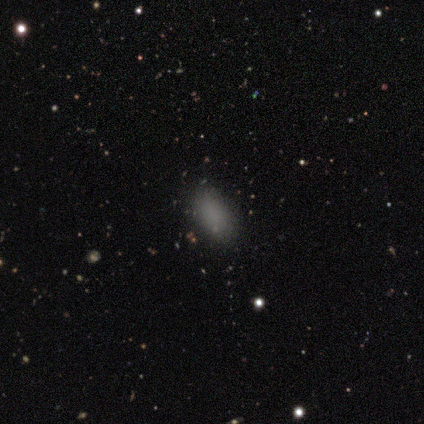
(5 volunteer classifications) Smooth or featured? 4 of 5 (80%) said smooth. How rounded? 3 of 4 (75%) said in between. Merging? 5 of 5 (100%) said none.